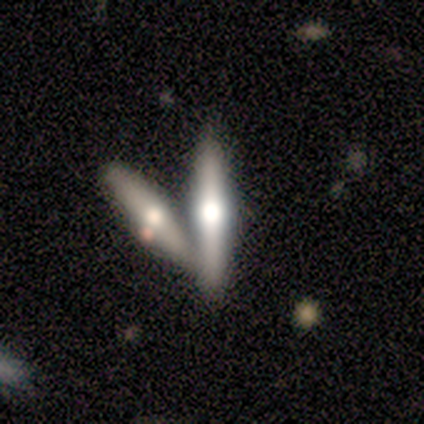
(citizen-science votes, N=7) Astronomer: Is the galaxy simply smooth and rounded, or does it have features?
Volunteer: featured or disk — 86%.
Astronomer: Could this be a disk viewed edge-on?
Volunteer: yes — 100%.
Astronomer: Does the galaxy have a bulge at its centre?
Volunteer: rounded — 100%.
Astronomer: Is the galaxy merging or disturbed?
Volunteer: merger — 57%.